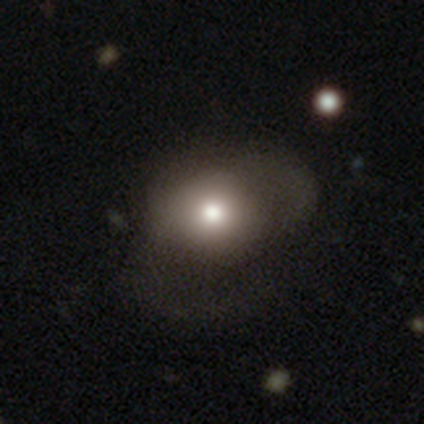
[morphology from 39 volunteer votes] smooth 59%, featured or disk 23%, star or artifact 18%. Down the decision tree: how rounded — round (52%); merging — major disturbance (56%).